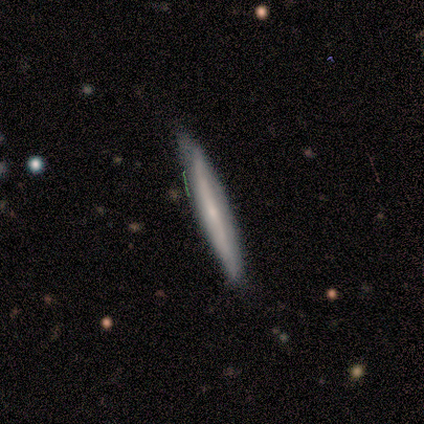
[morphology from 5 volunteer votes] smooth-or-featured: smooth: 80% | featured or disk: 20% | star or artifact: 0%
  how-rounded: cigar-shaped: 100% | round: 0% | in between: 0%
  merging: none: 80% | minor disturbance: 20% | major disturbance: 0% | merger: 0%